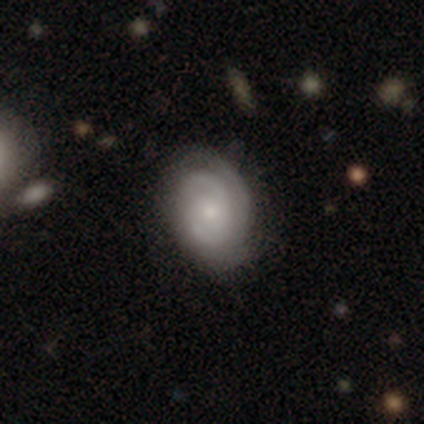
Smooth or featured?
  - featured or disk: 80% *
  - smooth: 17%
  - star or artifact: 2%
Edge-on disk?
  - no: 94% *
  - yes: 6%
Bar?
  - no: 71% *
  - weak: 26%
  - strong: 3%
Spiral arms?
  - yes: 94% *
  - no: 6%
Spiral winding?
  - tight: 79% *
  - medium: 17%
  - loose: 3%
Spiral arm count?
  - 2: 45% *
  - can't tell: 31%
  - 3: 14%
  - 1: 10%
  - 4: 0%
  - more than 4: 0%
Bulge size?
  - small: 48% *
  - moderate: 42%
  - none: 10%
  - dominant: 0%
  - large: 0%
Merging?
  - none: 70% *
  - minor disturbance: 28%
  - major disturbance: 2%
  - merger: 0%